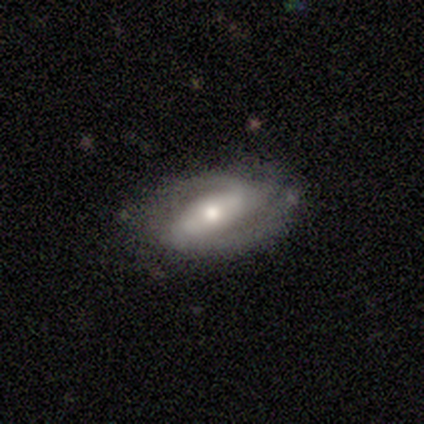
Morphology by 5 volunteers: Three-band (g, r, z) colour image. It shows a featured or disk galaxy (100%) with a strong bar (60%), 2 (100%) medium (60%) spiral arms (100%) and a moderate central bulge (80%). Merging: none (60%).